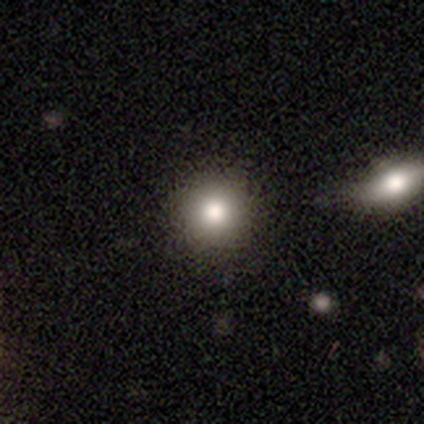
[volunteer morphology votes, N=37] Overall: smooth (76%). How rounded: round (89%). Merging: none (84%).